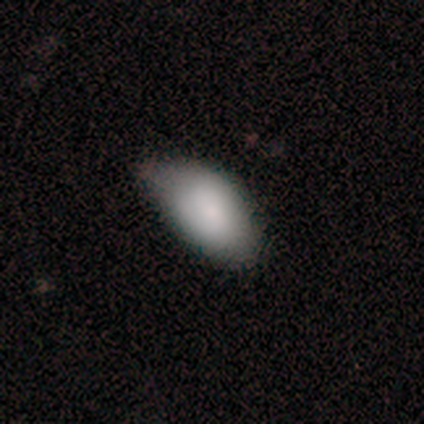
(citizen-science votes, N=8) smooth_or_featured: smooth (p=1.00)
how_rounded: in between (p=1.00)
merging: none (p=0.50) [tied with: minor disturbance p=0.50]